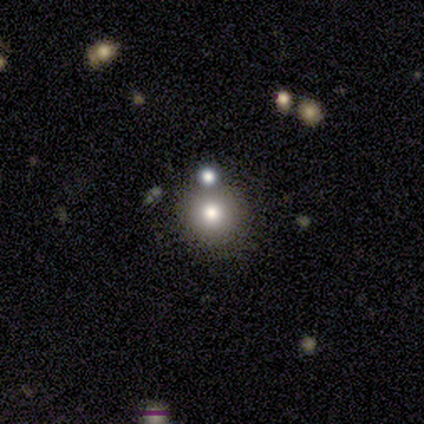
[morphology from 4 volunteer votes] Smooth or featured? 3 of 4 (75%) said smooth. How rounded? 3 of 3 (100%) said round. Merging? 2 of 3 (67%) said none.